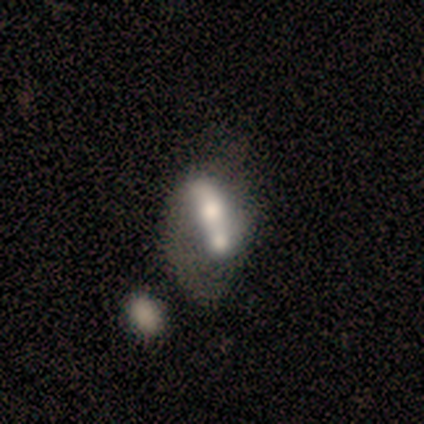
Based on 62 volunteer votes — Smooth or featured? featured or disk (47%)
Edge-on disk? no (86%)
Bar? no (52%)
Spiral arms? no (60%)
Bulge size? moderate (56%)
Merging? merger (71%)